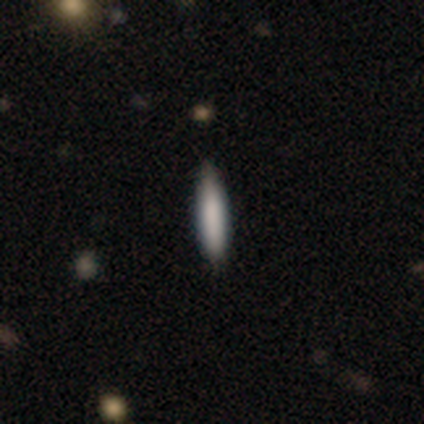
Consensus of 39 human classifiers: Smooth or featured? smooth (85%)
How rounded? cigar-shaped (94%)
Merging? none (56%)